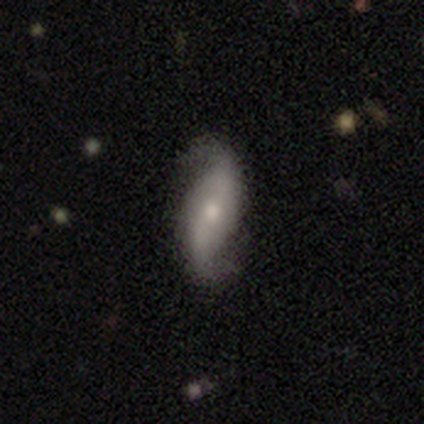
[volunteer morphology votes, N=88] Q: Smooth or featured?
A: featured or disk (80%); runner-up: smooth (14%)
Q: Edge-on disk?
A: no (86%); runner-up: yes (14%)
Q: Bar?
A: no (43%); runner-up: strong (35%)
Q: Spiral arms?
A: yes (88%); runner-up: no (12%)
Q: Spiral winding?
A: loose (81%); runner-up: medium (13%)
Q: Spiral arm count?
A: 2 (98%); runner-up: 1 (2%)
Q: Bulge size?
A: small (47%); runner-up: moderate (45%)
Q: Merging?
A: none (82%); runner-up: minor disturbance (12%)